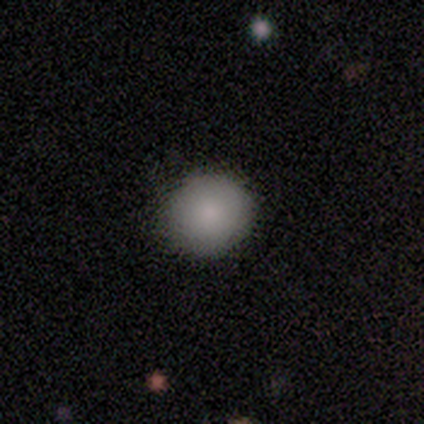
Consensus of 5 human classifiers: This is clearly a smooth galaxy (80%). How rounded: clearly round (100%). Merging: clearly none (80%).